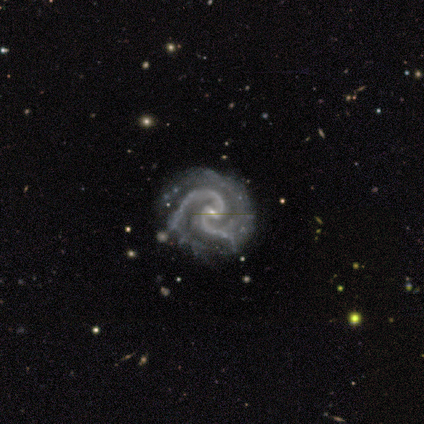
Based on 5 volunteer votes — featured or disk 100%, smooth 0%, star or artifact 0%. Down the decision tree: edge-on disk — no (100%); bar — strong (60%); spiral arms — yes (100%); spiral arm count — 2 (100%); spiral winding — medium (60%); bulge size — small (80%); merging — none (100%).